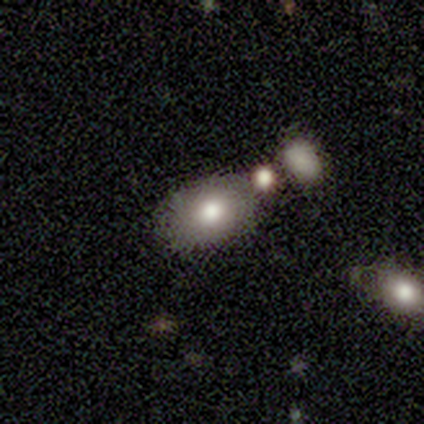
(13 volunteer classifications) Volunteers were most divided on "smooth or featured" (2-way tie): smooth: 46%, star or artifact: 46%, featured or disk: 8%. More confident: how rounded — in between (100%); merging — none (71%).